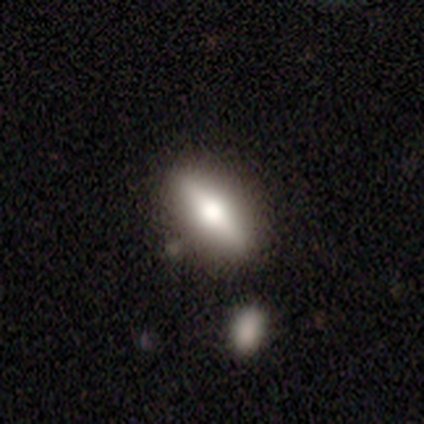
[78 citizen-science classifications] This is possibly a featured or disk galaxy (51%). It is likely viewed edge-on (75%). Edge-on bulge: clearly rounded (93%). Merging: marginally none (37%).